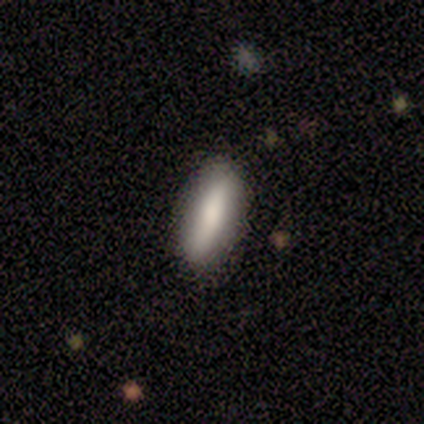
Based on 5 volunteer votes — Smooth or featured: smooth — 100%
How rounded: cigar-shaped — 100%
Merging: none — 80% (minor disturbance — 20%)